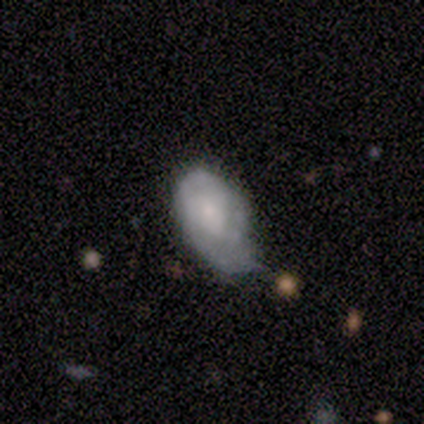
Overall: smooth (100%). How rounded: in between (100%). Merging: minor disturbance (100%).